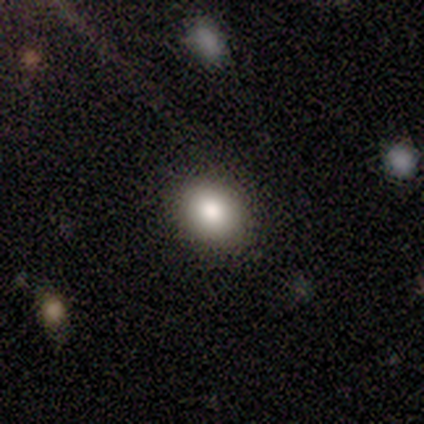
smooth_or_featured: smooth (p=0.75) [alt: featured or disk p=0.25]
how_rounded: round (p=0.67) [alt: in between p=0.33]
merging: none (p=1.00)